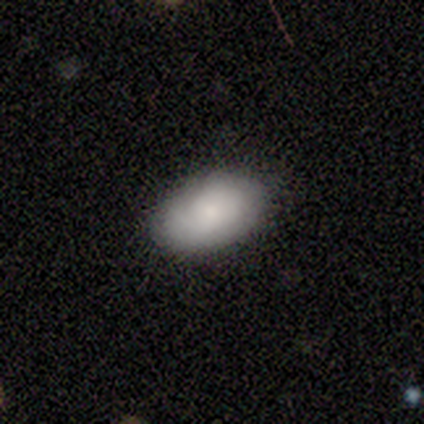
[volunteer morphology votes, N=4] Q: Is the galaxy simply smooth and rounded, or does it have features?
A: smooth — 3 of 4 (75%).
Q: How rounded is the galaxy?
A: in between — 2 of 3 (67%).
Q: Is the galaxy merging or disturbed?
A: none — 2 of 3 (67%).